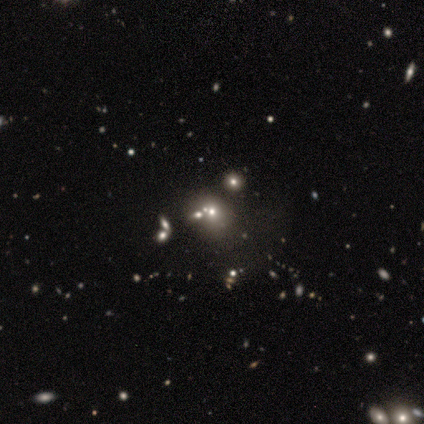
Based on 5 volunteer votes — Volunteers were most divided on "smooth or featured": smooth: 60%, featured or disk: 20%, star or artifact: 20%. More confident: how rounded — round (100%); merging — none (100%).